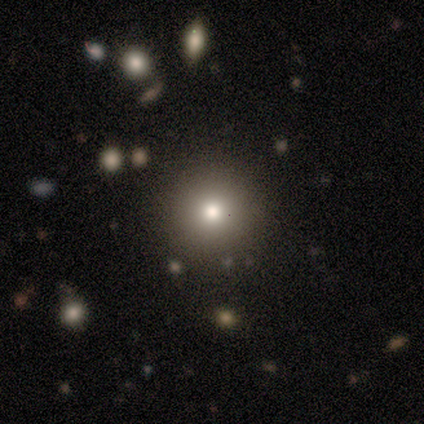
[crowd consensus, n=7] smooth-or-featured: smooth: 43% (tied) | star or artifact: 43% (tied) | featured or disk: 14%
  how-rounded: round: 100% | in between: 0% | cigar-shaped: 0%
  merging: none: 75% | minor disturbance: 25% | major disturbance: 0% | merger: 0%